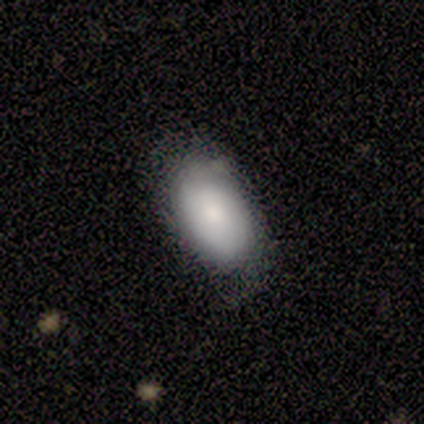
Smooth or featured? 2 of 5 (40%, tied with featured or disk) said smooth. How rounded? 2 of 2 (100%) said in between. Merging? 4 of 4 (100%) said minor disturbance.